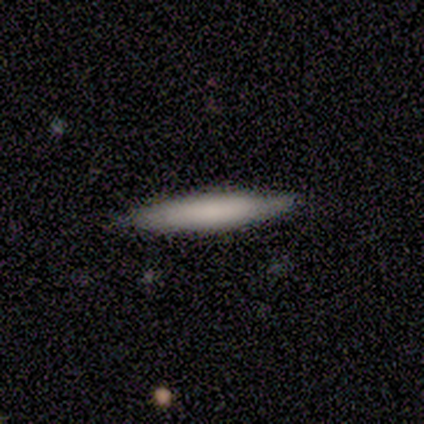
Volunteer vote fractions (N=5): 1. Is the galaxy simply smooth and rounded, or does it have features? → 60% smooth, 40% featured or disk, 0% star or artifact.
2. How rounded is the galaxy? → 100% cigar-shaped, 0% round, 0% in between.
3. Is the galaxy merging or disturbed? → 100% none, 0% minor disturbance, 0% major disturbance, 0% merger.